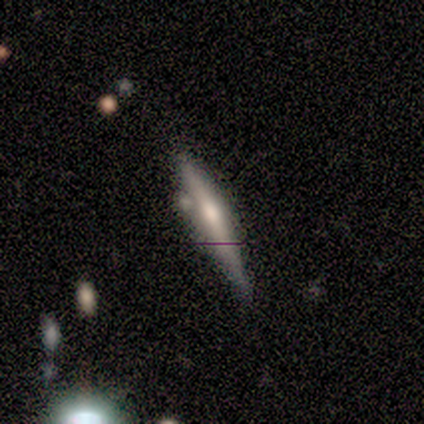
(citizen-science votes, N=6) smooth-or-featured: featured or disk: 83% | smooth: 17% | star or artifact: 0%
  disk-edge-on: yes: 100% | no: 0%
    edge-on-bulge: rounded: 100% | boxy: 0% | none: 0%
  merging: none: 67% | minor disturbance: 17% | merger: 17% | major disturbance: 0%